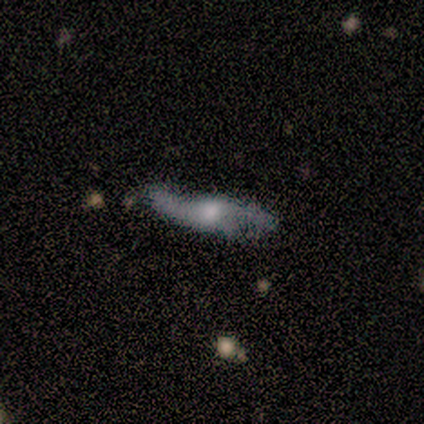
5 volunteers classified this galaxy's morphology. This appears to be a featured or disk galaxy (60%) with a weak bar (50%, tied with no), 2 (50%, tied with can't tell) loose (100%) spiral arms (100%) and a moderate central bulge (100%). Merging: none (80%).